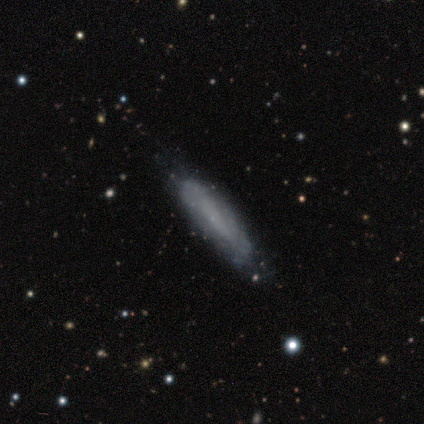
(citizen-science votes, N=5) Morphology: type=smooth (100%); roundness=cigar-shaped (80%); merging=none (100%).